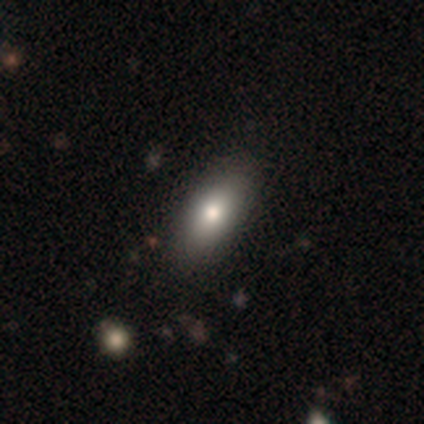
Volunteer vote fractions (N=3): This is likely a smooth galaxy (67%). How rounded: clearly in between (100%). Merging: possibly none (50%, tied with minor disturbance).